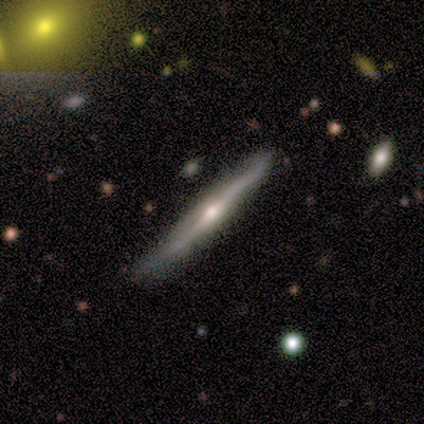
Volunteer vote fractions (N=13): Smooth or featured: featured or disk — 85% (smooth — 8%)
Edge-on disk: yes — 100%
Edge-on bulge: rounded — 91% (none — 9%)
Merging: none — 75% (minor disturbance — 17%)